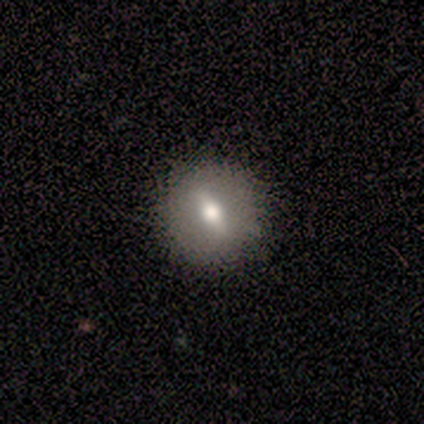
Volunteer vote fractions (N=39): Smooth or featured? smooth (64%)
How rounded? round (80%)
Merging? none (97%)